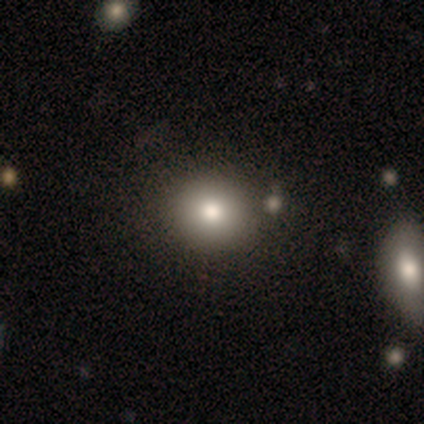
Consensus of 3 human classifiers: Q: Smooth or featured?
A: smooth (67%); runner-up: featured or disk (33%)
Q: How rounded?
A: round (100%)
Q: Merging?
A: none (100%)